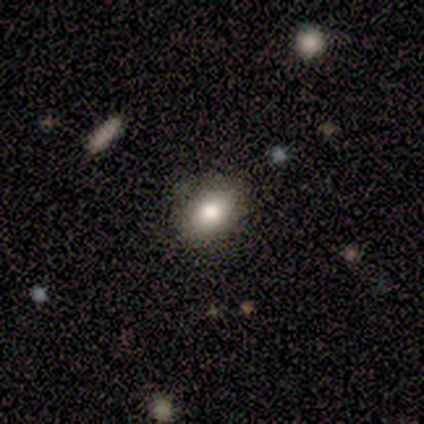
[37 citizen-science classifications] Morphology: type=smooth (70%); roundness=in between (58%); merging=none (88%).